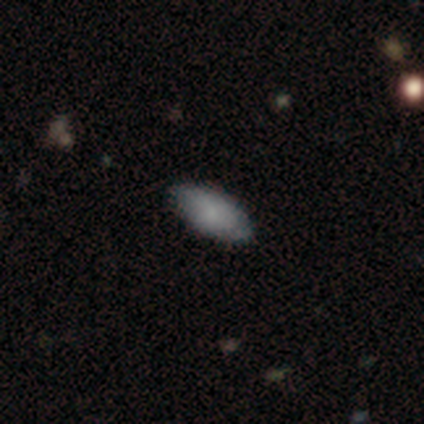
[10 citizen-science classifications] This appears to be a smooth galaxy with no disk features (70%) that is in between round and cigar-shaped (100%). Merging: none (80%).